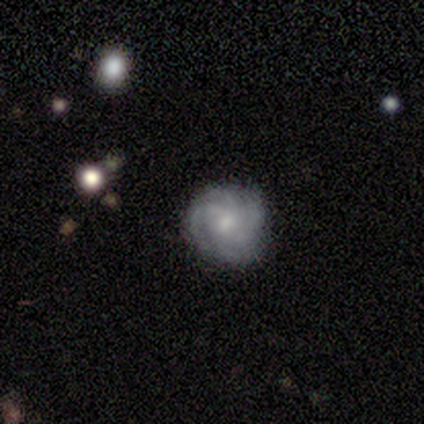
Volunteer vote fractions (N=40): This appears to be a featured or disk galaxy (65%) with no bar (62%), tight (68%) spiral arms (96%) and a moderate central bulge (46%, tied with small). Merging: none (79%).